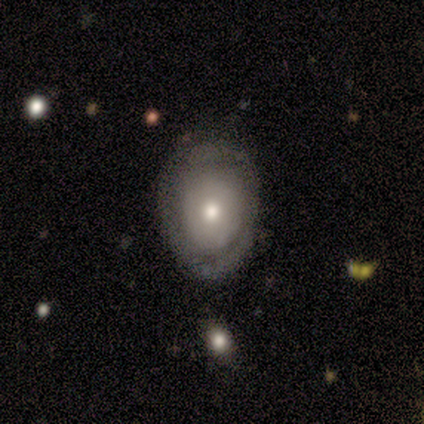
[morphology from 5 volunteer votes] type=smooth (40%, tied with featured or disk); roundness=in between (100%); merging=minor disturbance (50%).